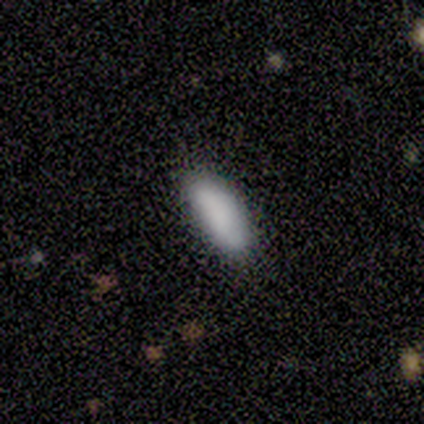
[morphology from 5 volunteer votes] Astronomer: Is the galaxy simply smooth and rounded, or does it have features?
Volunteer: smooth — 100%.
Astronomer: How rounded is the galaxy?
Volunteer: in between — 80%.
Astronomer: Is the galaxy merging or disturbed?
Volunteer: none — 100%.